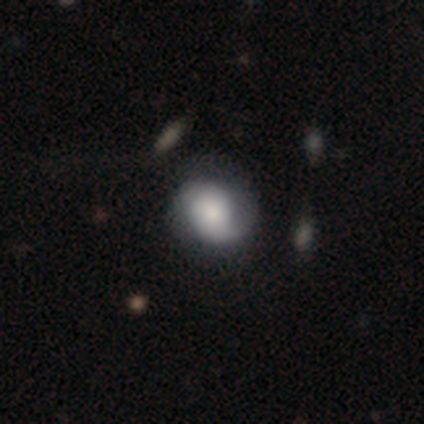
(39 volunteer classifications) Q: Smooth or featured?
A: featured or disk (67%); runner-up: smooth (31%)
Q: Edge-on disk?
A: no (100%)
Q: Bar?
A: no (88%); runner-up: weak (8%)
Q: Spiral arms?
A: yes (77%); runner-up: no (23%)
Q: Spiral winding?
A: medium (45%); runner-up: tight (35%)
Q: Spiral arm count?
A: 2 (45%); runner-up: 1 (35%)
Q: Bulge size?
A: dominant (27%); tied with: moderate (27%)
Q: Merging?
A: none (34%); runner-up: minor disturbance (18%)